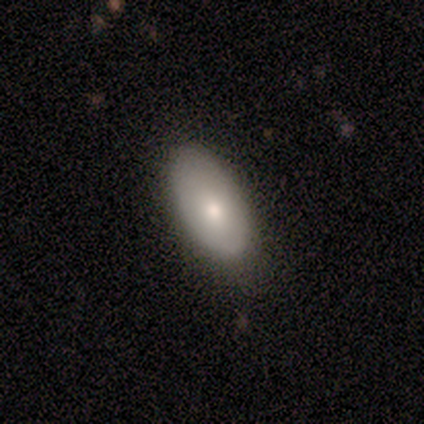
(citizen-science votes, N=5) Smooth or featured? smooth (80%)
How rounded? in between (100%)
Merging? none (100%)